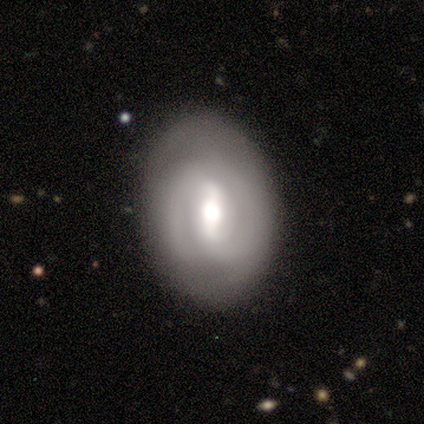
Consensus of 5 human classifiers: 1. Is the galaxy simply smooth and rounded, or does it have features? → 100% featured or disk, 0% smooth, 0% star or artifact.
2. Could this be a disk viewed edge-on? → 100% no, 0% yes.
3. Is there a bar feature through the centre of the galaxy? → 60% weak, 20% strong, 20% no.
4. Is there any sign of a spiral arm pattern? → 60% no, 40% yes.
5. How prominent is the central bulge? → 60% moderate, 20% large, 20% small, 0% dominant, 0% none.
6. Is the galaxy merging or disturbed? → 80% none, 20% minor disturbance, 0% major disturbance, 0% merger.